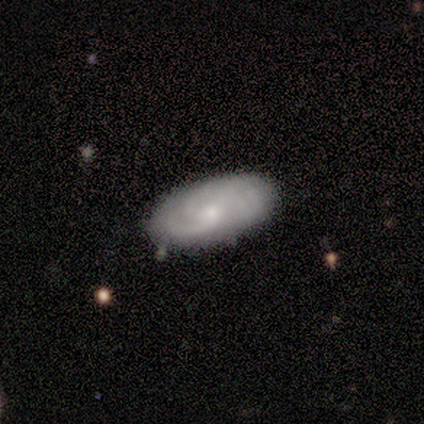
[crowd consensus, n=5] Smooth or featured? 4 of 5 (80%) said featured or disk. Edge-on disk? 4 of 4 (100%) said no. Bar? 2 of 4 (50%) said no. Spiral arms? 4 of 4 (100%) said yes. Spiral winding? 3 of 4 (75%) said tight. Spiral arm count? 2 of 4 (50%) said 3. Bulge size? 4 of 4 (100%) said small. Merging? 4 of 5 (80%) said none.